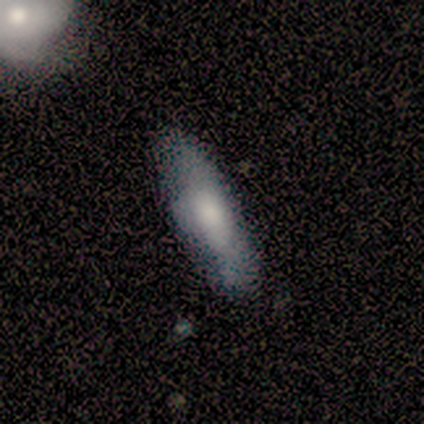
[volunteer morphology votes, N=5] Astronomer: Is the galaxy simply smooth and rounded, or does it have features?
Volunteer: smooth — 100%.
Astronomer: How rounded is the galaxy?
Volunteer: in between — 100%.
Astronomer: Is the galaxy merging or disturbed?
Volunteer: none — 100%.